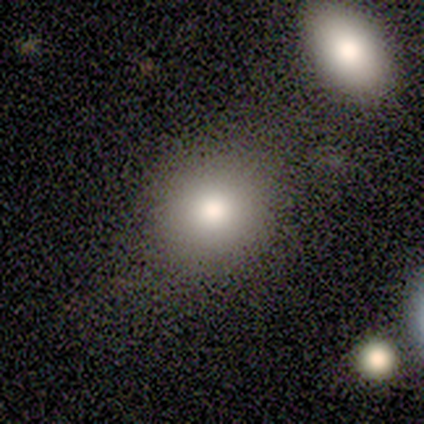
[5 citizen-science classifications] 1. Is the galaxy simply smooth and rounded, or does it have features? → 80% smooth, 20% star or artifact, 0% featured or disk.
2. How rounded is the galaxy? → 50% round (tied), 50% in between (tied), 0% cigar-shaped.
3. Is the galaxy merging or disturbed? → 50% none (tied), 50% minor disturbance (tied), 0% major disturbance, 0% merger.